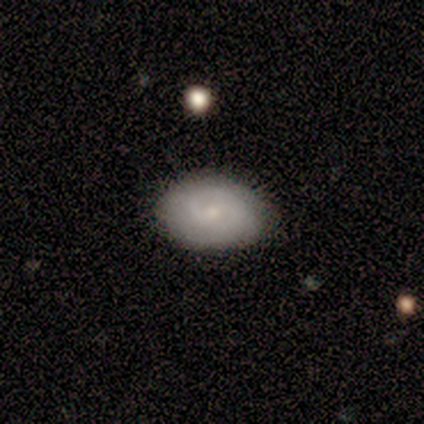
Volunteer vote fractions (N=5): Volunteers were most divided on "spiral arm count": 1: 50%, 2: 25%, 3: 25%, 4: 0%, more than 4: 0%, can't tell: 0%. More confident: edge-on disk — no (100%); spiral arms — yes (100%); smooth or featured — featured or disk (80%); bar — weak (75%); spiral winding — tight (75%); bulge size — small (75%); merging — none (75%).